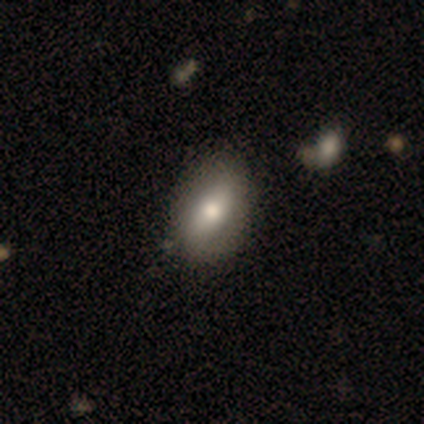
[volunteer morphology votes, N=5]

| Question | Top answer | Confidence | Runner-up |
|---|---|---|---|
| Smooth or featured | featured or disk | 40% | tied: star or artifact (40%) |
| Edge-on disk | yes | 50% | tied: no (50%) |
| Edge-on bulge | rounded | 100% | — |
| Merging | none | 67% | merger (33%) |